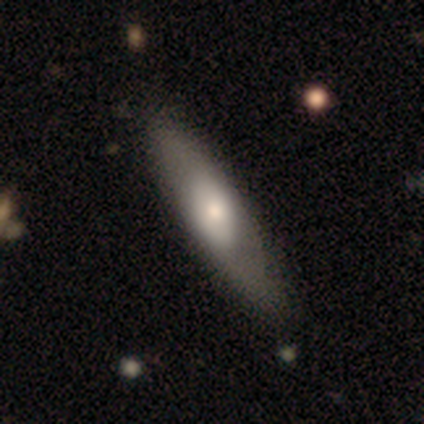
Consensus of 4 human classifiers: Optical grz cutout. It shows a smooth galaxy with no disk features (50%) that is cigar-shaped (100%). Merging: none (67%).